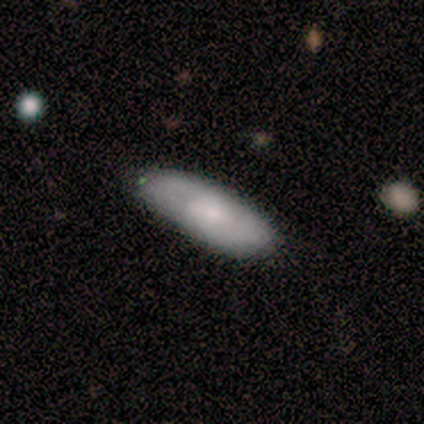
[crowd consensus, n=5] A smooth galaxy with no disk features (80%) that is in between round and cigar-shaped (75%).

Vote fractions:
- Smooth or featured? smooth: 80% / featured or disk: 20% / star or artifact: 0%
- How rounded? in between: 75% / cigar-shaped: 25% / round: 0%
- Merging? none: 60% / minor disturbance: 20% / major disturbance: 20% / merger: 0%